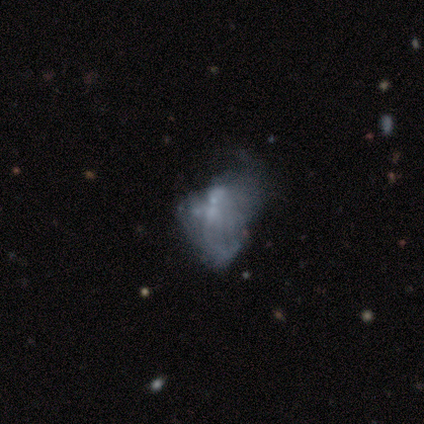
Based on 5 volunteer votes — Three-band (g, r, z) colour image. It shows a smooth galaxy with no disk features (60%) that is in between round and cigar-shaped (100%). Merging: major disturbance (50%).